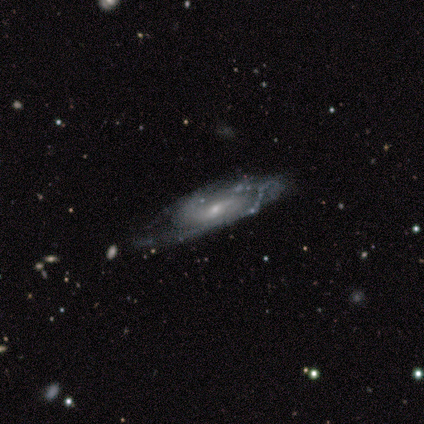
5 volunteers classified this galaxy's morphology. Smooth or featured? 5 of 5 (100%) said featured or disk. Edge-on disk? 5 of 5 (100%) said no. Bar? 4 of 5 (80%) said weak. Spiral arms? 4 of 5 (80%) said yes. Spiral winding? 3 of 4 (75%) said medium. Spiral arm count? 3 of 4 (75%) said can't tell. Bulge size? 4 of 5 (80%) said small. Merging? 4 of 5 (80%) said none.